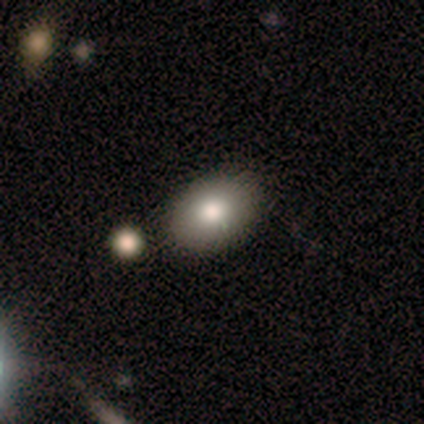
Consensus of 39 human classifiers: Smooth or featured?
  - smooth: 85% *
  - featured or disk: 13%
  - star or artifact: 3%
How rounded?
  - in between: 73% *
  - round: 27%
  - cigar-shaped: 0%
Merging?
  - none: 74% *
  - major disturbance: 5%
  - merger: 5%
  - minor disturbance: 3%